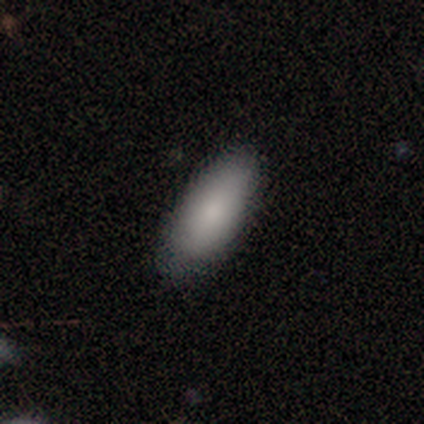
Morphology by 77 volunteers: This is clearly a smooth galaxy (87%). How rounded: clearly in between (88%). Merging: marginally none (36%).